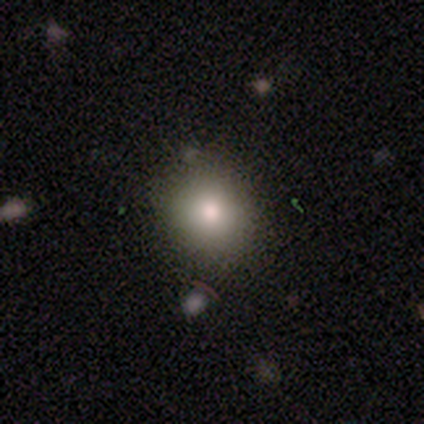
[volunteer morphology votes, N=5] Smooth or featured: smooth — 80% (featured or disk — 20%)
How rounded: round — 75% (in between — 25%)
Merging: none — 80% (minor disturbance — 20%)